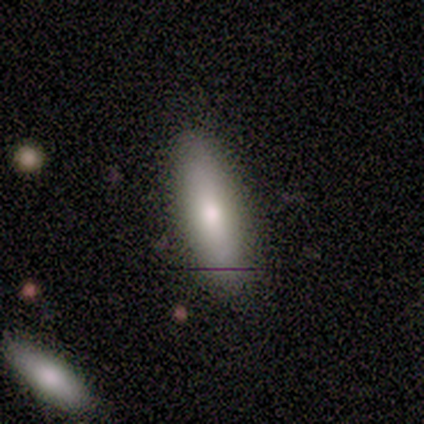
Morphology: type=smooth (86%); roundness=in between (50%, tied with cigar-shaped); merging=none (86%).